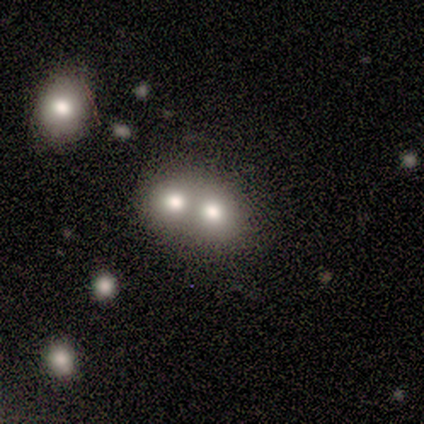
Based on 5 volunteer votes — Smooth or featured: smooth — 40% (tied with featured or disk — 40%)
How rounded: round — 100%
Merging: merger — 75% (none — 25%)